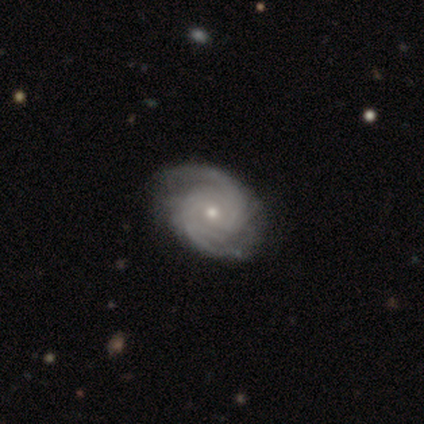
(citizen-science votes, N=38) Smooth or featured? 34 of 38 (89%) said featured or disk. Edge-on disk? 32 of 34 (94%) said no. Bar? 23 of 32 (72%) said no. Spiral arms? 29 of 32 (91%) said yes. Spiral winding? 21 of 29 (72%) said tight. Spiral arm count? 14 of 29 (48%) said 2. Bulge size? 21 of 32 (66%) said small. Merging? 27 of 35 (77%) said none.